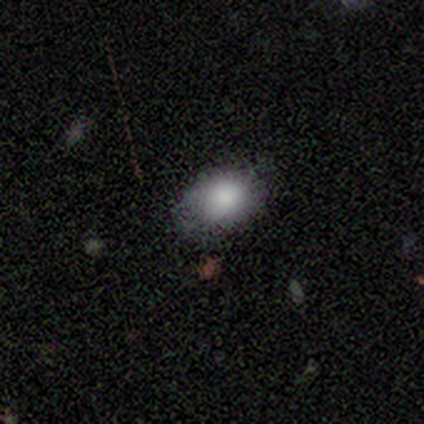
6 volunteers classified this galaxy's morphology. Q: Smooth or featured?
A: smooth (83%); runner-up: featured or disk (17%)
Q: How rounded?
A: in between (60%); runner-up: round (40%)
Q: Merging?
A: none (83%); runner-up: minor disturbance (17%)